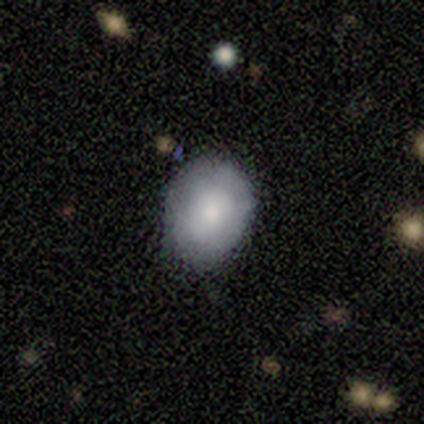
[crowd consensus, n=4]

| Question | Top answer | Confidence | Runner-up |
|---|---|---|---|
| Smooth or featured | smooth | 75% | featured or disk (25%) |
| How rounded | round | 67% | in between (33%) |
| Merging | none | 75% | minor disturbance (25%) |